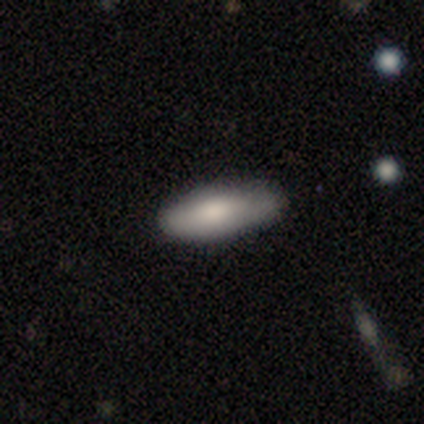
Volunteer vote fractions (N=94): A smooth galaxy with no disk features (79%) that is in between round and cigar-shaped (77%).

Vote fractions:
- Smooth or featured? smooth: 79% / featured or disk: 17% / star or artifact: 4%
- How rounded? in between: 77% / cigar-shaped: 20% / round: 3%
- Merging? none: 70% / minor disturbance: 28% / major disturbance: 1% / merger: 1%